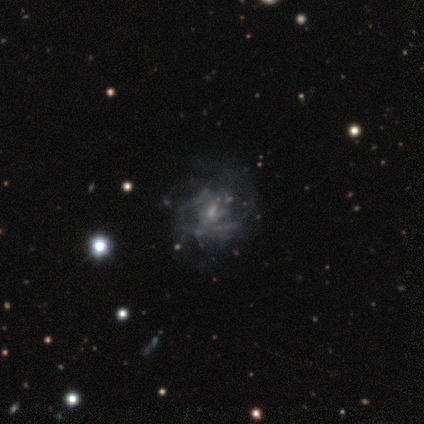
Q: Smooth or featured?
A: featured or disk (80%); runner-up: star or artifact (20%)
Q: Edge-on disk?
A: no (100%)
Q: Bar?
A: no (75%); runner-up: strong (25%)
Q: Spiral arms?
A: yes (75%); runner-up: no (25%)
Q: Spiral winding?
A: medium (67%); runner-up: loose (33%)
Q: Spiral arm count?
A: 3 (67%); runner-up: 1 (33%)
Q: Bulge size?
A: small (75%); runner-up: none (25%)
Q: Merging?
A: major disturbance (75%); runner-up: none (25%)